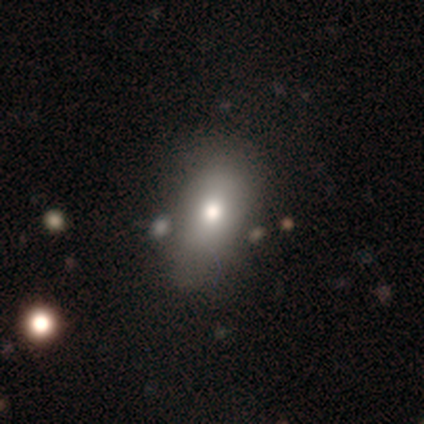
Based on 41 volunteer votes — Q: Smooth or featured?
A: smooth (83%); runner-up: featured or disk (12%)
Q: How rounded?
A: in between (85%); runner-up: round (12%)
Q: Merging?
A: none (54%); runner-up: merger (10%)